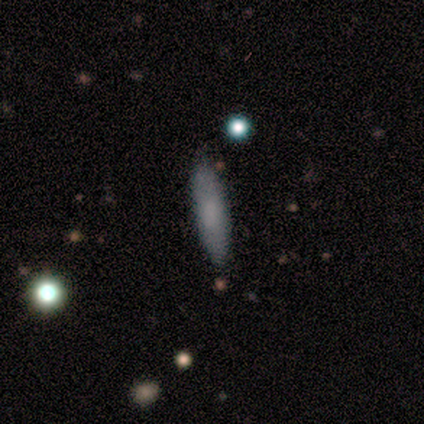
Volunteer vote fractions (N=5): Smooth or featured? 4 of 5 (80%) said smooth. How rounded? 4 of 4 (100%) said cigar-shaped. Merging? 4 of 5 (80%) said none.